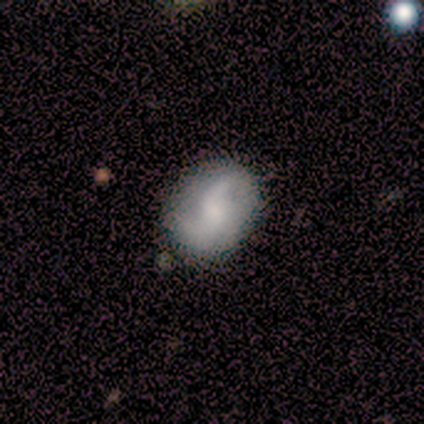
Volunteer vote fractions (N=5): A featured or disk galaxy (60%) with a weak bar (67%), 2 (100%) medium (100%) spiral arms (67%) and no central bulge (67%). Merging: none (60%).